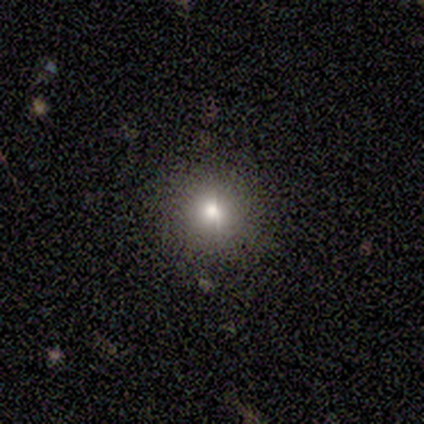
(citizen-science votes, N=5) Smooth or featured? smooth (80%)
How rounded? round (100%)
Merging? none (100%)